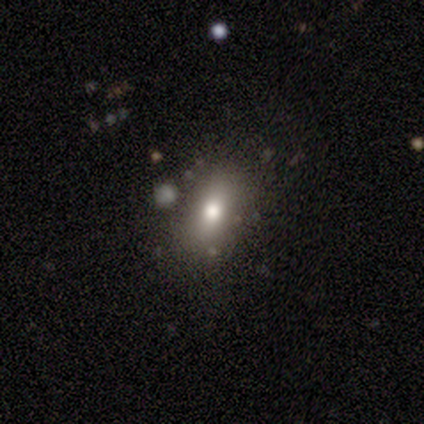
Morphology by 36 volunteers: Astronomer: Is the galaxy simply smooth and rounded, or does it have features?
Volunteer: smooth — 72%.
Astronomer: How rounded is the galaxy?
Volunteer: in between — 88%.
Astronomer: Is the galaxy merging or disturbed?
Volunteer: none — 80%.